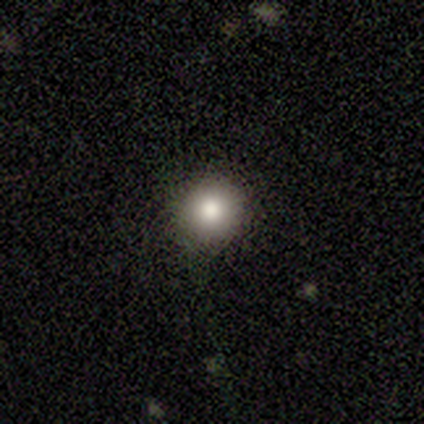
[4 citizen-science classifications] Overall: smooth (100%). How rounded: round (100%). Merging: none (75%).